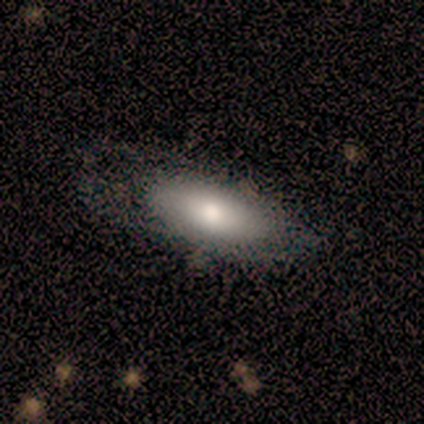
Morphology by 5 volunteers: Smooth or featured?
  - smooth: 100% *
  - featured or disk: 0%
  - star or artifact: 0%
How rounded?
  - in between: 80% *
  - cigar-shaped: 20%
  - round: 0%
Merging?
  - none: 80% *
  - major disturbance: 20%
  - minor disturbance: 0%
  - merger: 0%